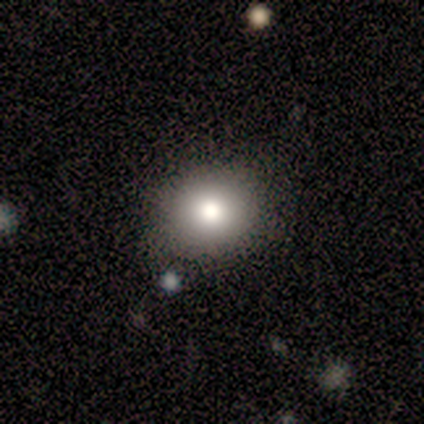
Q: Smooth or featured?
A: smooth (100%)
Q: How rounded?
A: in between (60%); runner-up: round (40%)
Q: Merging?
A: none (100%)